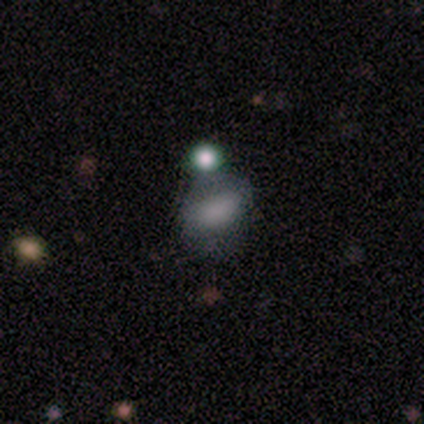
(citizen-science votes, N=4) Smooth or featured: smooth — 50% (tied with star or artifact — 50%)
How rounded: in between — 100%
Merging: none — 50% (tied with minor disturbance — 50%)